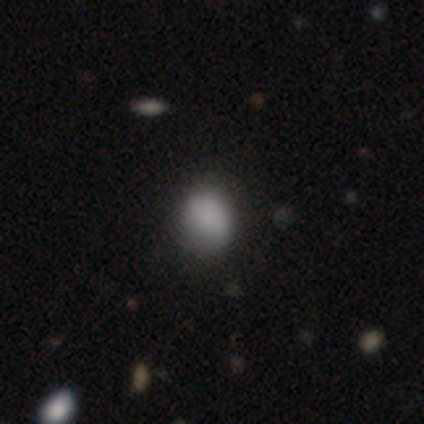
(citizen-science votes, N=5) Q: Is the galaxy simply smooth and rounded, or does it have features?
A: smooth — 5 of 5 (100%).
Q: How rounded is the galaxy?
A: round — 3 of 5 (60%).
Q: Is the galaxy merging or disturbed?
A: none — 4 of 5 (80%).